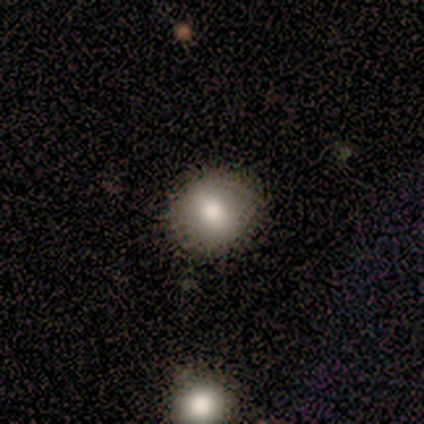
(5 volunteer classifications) smooth-or-featured: smooth: 80% | star or artifact: 20% | featured or disk: 0%
  how-rounded: round: 75% | in between: 25% | cigar-shaped: 0%
  merging: none: 75% | minor disturbance: 25% | major disturbance: 0% | merger: 0%